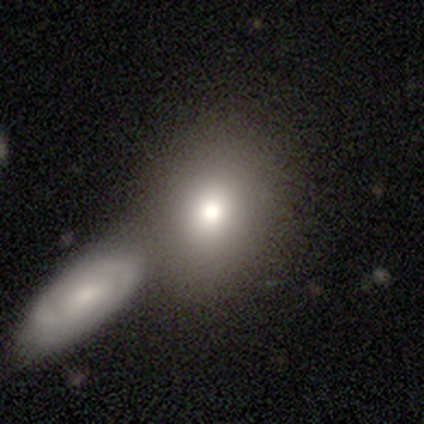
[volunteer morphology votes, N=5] A smooth galaxy with no disk features (100%) that is round (60%).

Vote fractions:
- Smooth or featured? smooth: 100% / featured or disk: 0% / star or artifact: 0%
- How rounded? round: 60% / in between: 40% / cigar-shaped: 0%
- Merging? merger: 60% / none: 20% / major disturbance: 20% / minor disturbance: 0%